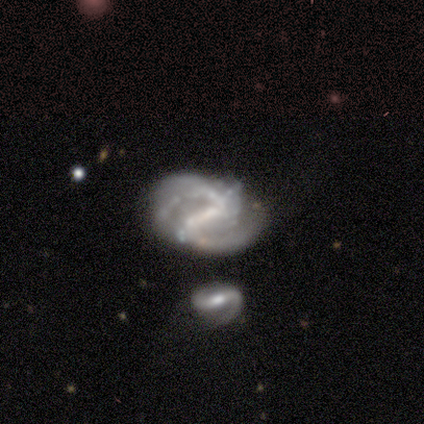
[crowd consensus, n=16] Morphology: type=featured or disk (81%); edge-on=no (100%); bar=strong (54%); spiral arms=yes (92%); winding=medium (42%, tied with loose); arm count=2 (33%, tied with 3); bulge=small (54%); merging=none (50%).